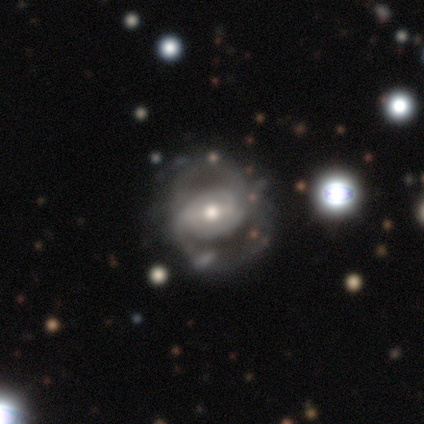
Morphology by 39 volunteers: Q: Smooth or featured?
A: featured or disk (82%); runner-up: smooth (13%)
Q: Edge-on disk?
A: no (91%); runner-up: yes (9%)
Q: Bar?
A: weak (48%); runner-up: strong (28%)
Q: Spiral arms?
A: yes (59%); runner-up: no (41%)
Q: Spiral winding?
A: medium (65%); runner-up: tight (29%)
Q: Spiral arm count?
A: 2 (71%); runner-up: can't tell (24%)
Q: Bulge size?
A: moderate (72%); runner-up: small (21%)
Q: Merging?
A: none (62%); runner-up: major disturbance (24%)